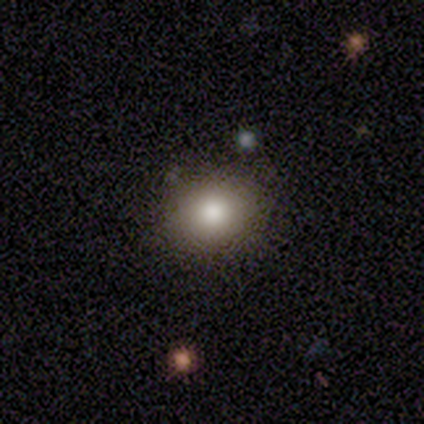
A smooth galaxy with no disk features (71%) that is round (80%). Merging: none (83%).